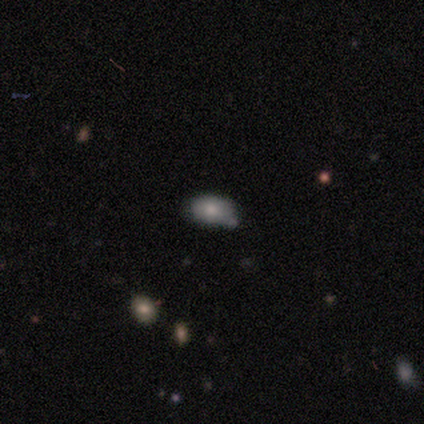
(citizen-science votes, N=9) Morphology: type=smooth (78%); roundness=in between (71%); merging=none (88%).